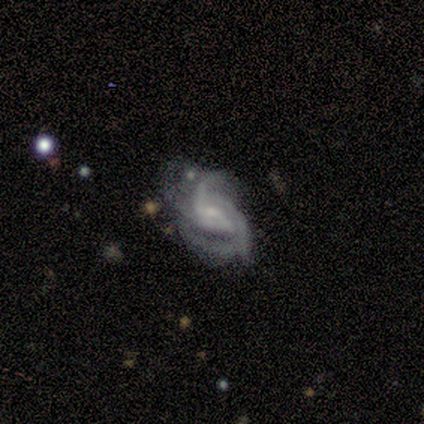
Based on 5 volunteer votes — Smooth or featured? featured or disk (100%)
Edge-on disk? no (100%)
Bar? no (60%)
Spiral arms? yes (100%)
Spiral winding? medium (60%)
Spiral arm count? 2 (60%)
Bulge size? small (80%)
Merging? minor disturbance (40%, tied with major disturbance)